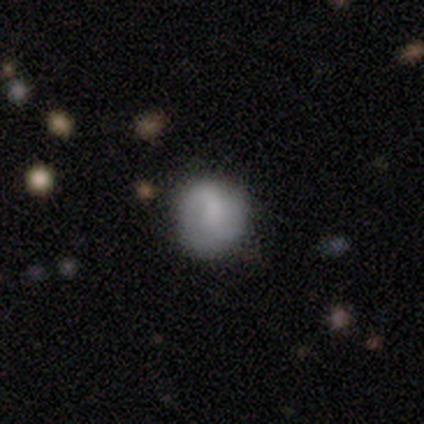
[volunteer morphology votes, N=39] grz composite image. It shows a featured or disk galaxy (56%) with no bar (48%), 2 (58%) loose (47%) spiral arms (90%) and a moderate central bulge (38%, tied with small). Merging: none (58%).